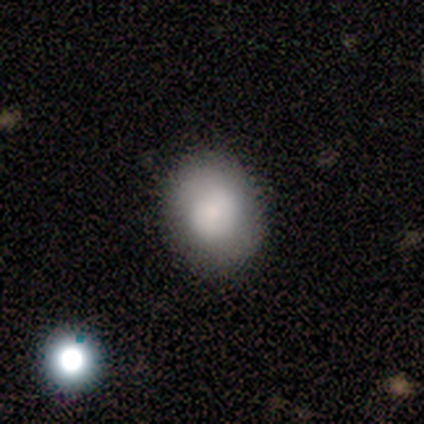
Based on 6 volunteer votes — This is likely a smooth galaxy (67%). How rounded: likely in between (75%). Merging: clearly none (83%).